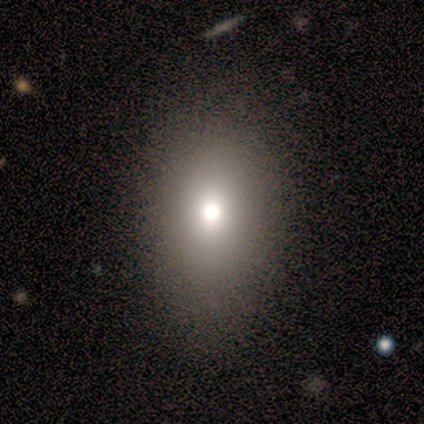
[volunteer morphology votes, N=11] A smooth galaxy with no disk features (73%) that is in between round and cigar-shaped (100%).

Vote fractions:
- Smooth or featured? smooth: 73% / featured or disk: 18% / star or artifact: 9%
- How rounded? in between: 100% / round: 0% / cigar-shaped: 0%
- Merging? none: 100% / minor disturbance: 0% / major disturbance: 0% / merger: 0%